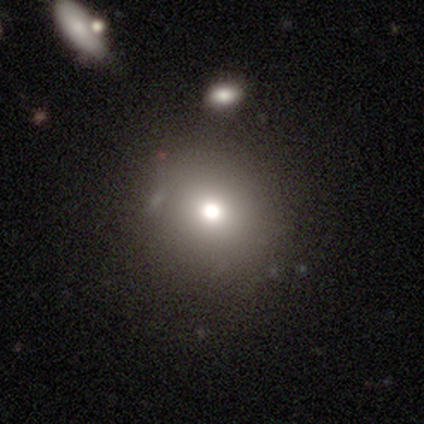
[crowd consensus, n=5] Overall: smooth (100%). How rounded: round (60%; in between 40%). Merging: none (100%).